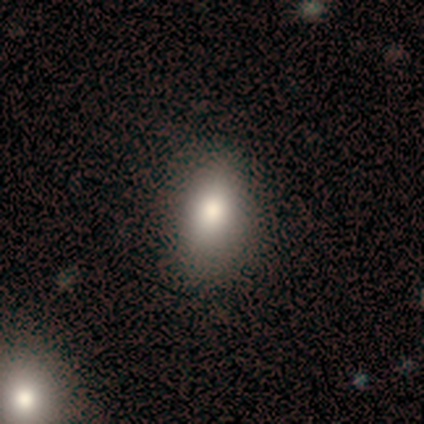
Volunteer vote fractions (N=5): Q: Smooth or featured?
A: smooth (100%)
Q: How rounded?
A: in between (80%); runner-up: round (20%)
Q: Merging?
A: none (100%)